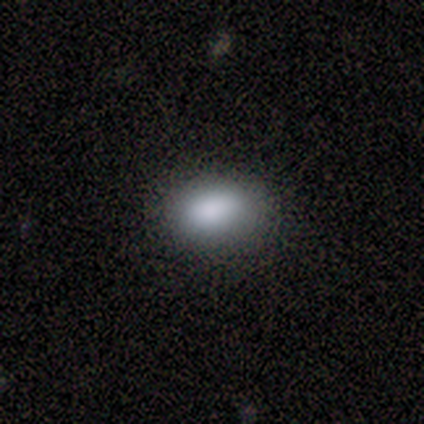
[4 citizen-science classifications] Morphology: type=smooth (100%); roundness=in between (100%); merging=none (100%).